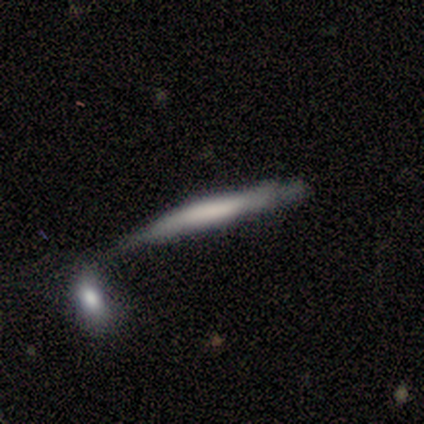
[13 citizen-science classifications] smooth_or_featured: smooth (p=0.85) [alt: featured or disk p=0.15]
how_rounded: cigar-shaped (p=1.00)
merging: none (p=0.31) [tied with: minor disturbance p=0.31, merger p=0.31]